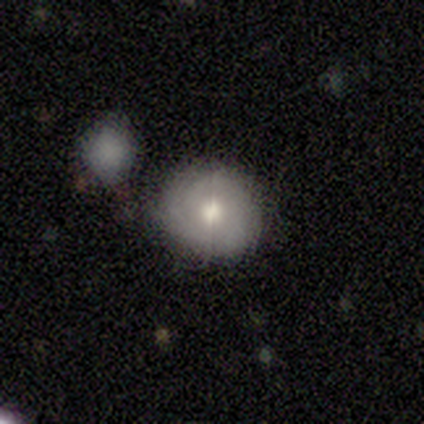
Smooth or featured?
  - smooth: 60% *
  - featured or disk: 40%
  - star or artifact: 0%
How rounded?
  - round: 100% *
  - in between: 0%
  - cigar-shaped: 0%
Merging?
  - none: 80% *
  - merger: 20%
  - minor disturbance: 0%
  - major disturbance: 0%